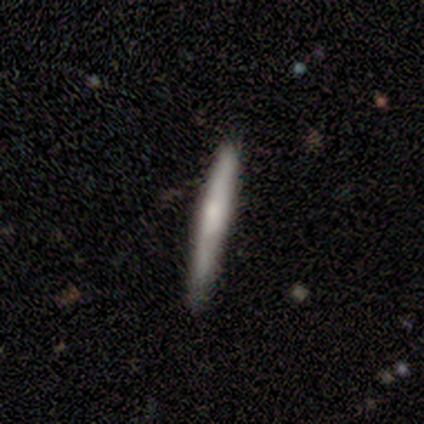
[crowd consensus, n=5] Smooth or featured? 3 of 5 (60%) said smooth. How rounded? 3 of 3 (100%) said cigar-shaped. Merging? 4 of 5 (80%) said none.